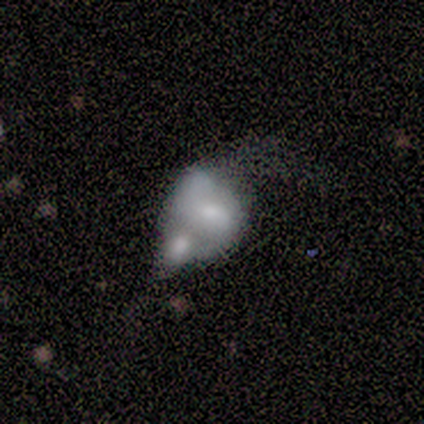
Overall: featured or disk (80%). Edge-on disk: no (100%). Bar: no (100%). Spiral arms: no (100%). Bulge size: moderate (50%; small 25%). Merging: merger (60%; none 20%).